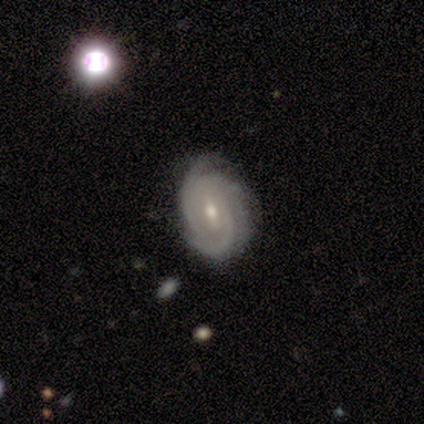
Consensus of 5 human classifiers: Smooth or featured? featured or disk (80%)
Edge-on disk? no (100%)
Bar? weak (50%, tied with no)
Spiral arms? yes (100%)
Spiral winding? tight (75%)
Spiral arm count? 3 (75%)
Bulge size? moderate (50%, tied with small)
Merging? none (100%)